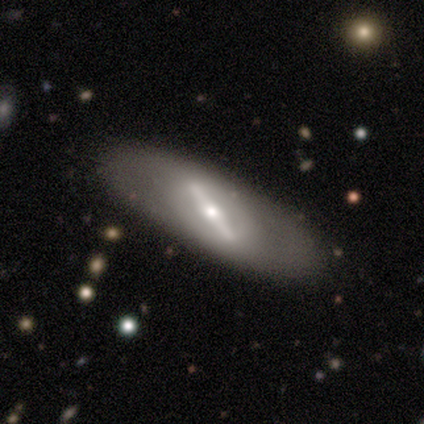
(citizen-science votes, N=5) A featured or disk galaxy (60%) with a strong bar (100%), no spiral arms (100%) and a small central bulge (67%). Merging: none (100%).